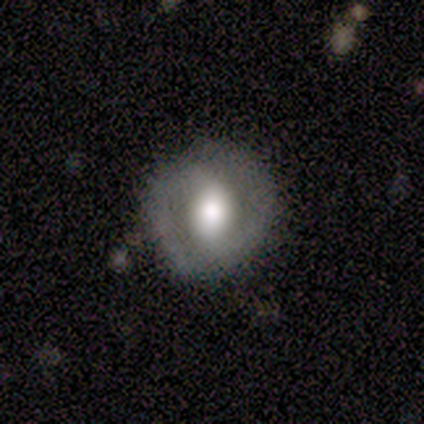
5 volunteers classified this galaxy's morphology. Smooth or featured?
  - featured or disk: 60% *
  - smooth: 20%
  - star or artifact: 20%
Edge-on disk?
  - no: 100% *
  - yes: 0%
Bar?
  - no: 67% *
  - strong: 33%
  - weak: 0%
Spiral arms?
  - yes: 67% *
  - no: 33%
Spiral winding?
  - medium: 50% * (tied)
  - loose: 50% * (tied)
  - tight: 0%
Spiral arm count?
  - 2: 100% *
  - 1: 0%
  - 3: 0%
  - 4: 0%
  - more than 4: 0%
  - can't tell: 0%
Bulge size?
  - moderate: 67% *
  - large: 33%
  - dominant: 0%
  - small: 0%
  - none: 0%
Merging?
  - none: 100% *
  - minor disturbance: 0%
  - major disturbance: 0%
  - merger: 0%